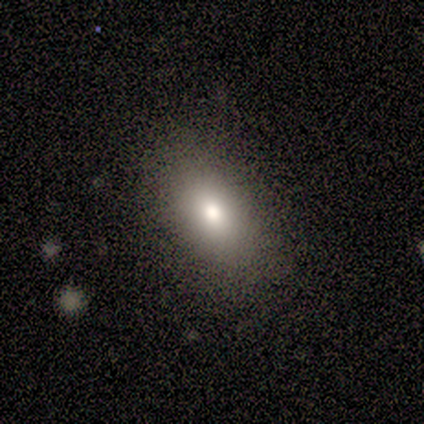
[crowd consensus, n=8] Smooth or featured?
  - smooth: 88% *
  - star or artifact: 12%
  - featured or disk: 0%
How rounded?
  - in between: 57% *
  - cigar-shaped: 29%
  - round: 14%
Merging?
  - none: 100% *
  - minor disturbance: 0%
  - major disturbance: 0%
  - merger: 0%